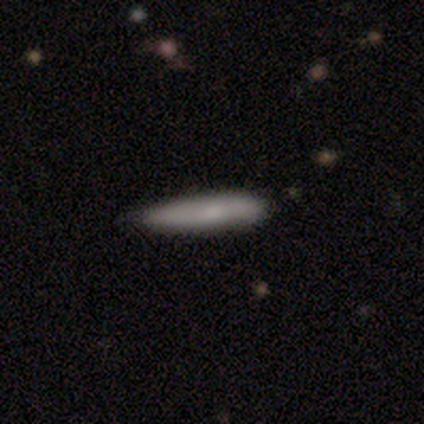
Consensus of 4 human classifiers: Volunteers were most divided on "smooth or featured" (2-way tie): smooth: 50%, featured or disk: 50%, star or artifact: 0%; "how rounded" (2-way tie): in between: 50%, cigar-shaped: 50%, round: 0%; "merging" (2-way tie): none: 50%, minor disturbance: 50%, major disturbance: 0%, merger: 0%.